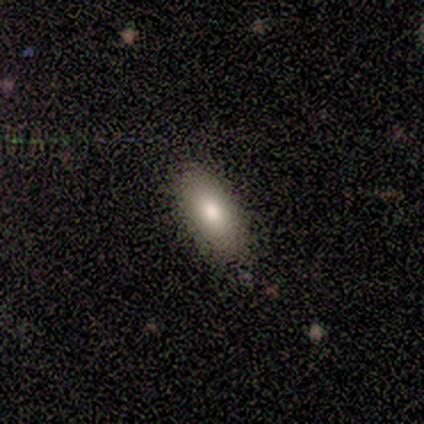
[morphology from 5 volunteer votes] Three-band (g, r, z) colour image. It shows a smooth galaxy with no disk features (80%) that is in between round and cigar-shaped (75%). Merging: none (80%).